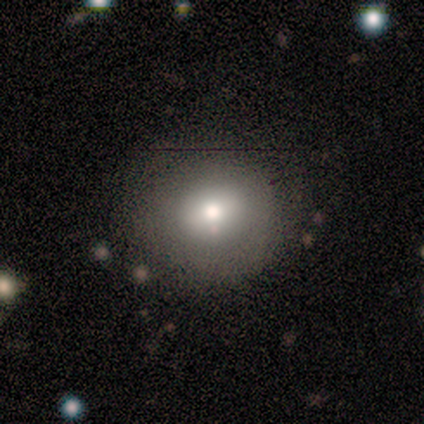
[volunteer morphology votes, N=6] Volunteers were most divided on "how rounded": round: 80%, in between: 20%, cigar-shaped: 0%. More confident: merging — none (100%); smooth or featured — smooth (83%).